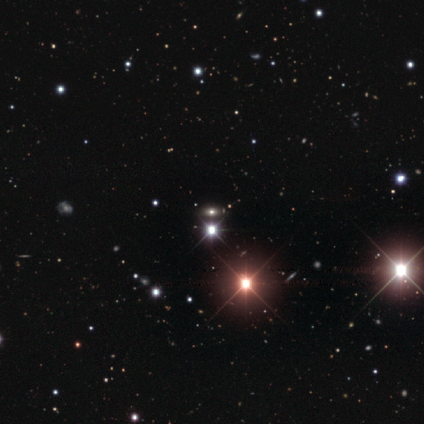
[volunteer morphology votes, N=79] This is likely a star or artifact rather than a galaxy (75%).